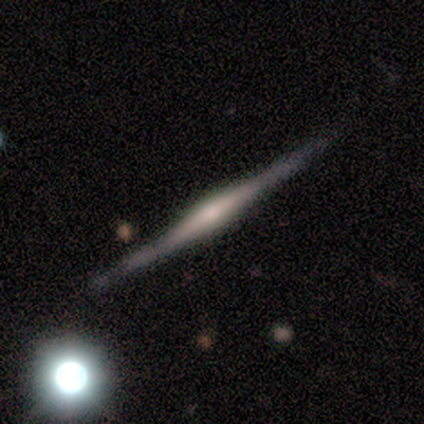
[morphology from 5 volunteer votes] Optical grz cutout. It shows a featured or disk galaxy (100%) viewed edge-on (100%) with a rounded central bulge (60%). Merging: none (60%).